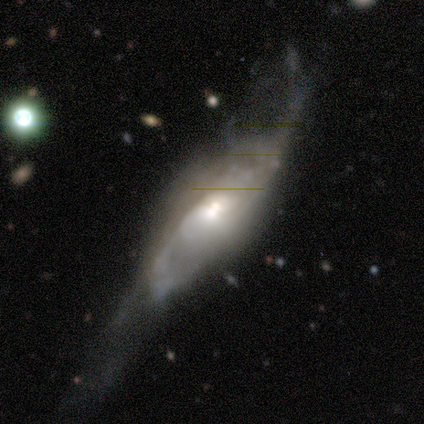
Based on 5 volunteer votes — A featured or disk galaxy (80%) with no bar (67%), 3 (50%, tied with can't tell) medium (100%) spiral arms (67%) and a large central bulge (33%, tied with moderate and small).

Vote fractions:
- Smooth or featured? featured or disk: 80% / smooth: 20% / star or artifact: 0%
- Edge-on disk? no: 75% / yes: 25%
- Bar? no: 67% / weak: 33% / strong: 0%
- Spiral arms? yes: 67% / no: 33%
- Spiral winding? medium: 100% / tight: 0% / loose: 0%
- Spiral arm count? 3: 50% (tied) / can't tell: 50% (tied) / 1: 0% / 2: 0% / 4: 0% / more than 4: 0%
- Bulge size? large: 33% (tied) / moderate: 33% (tied) / small: 33% (tied) / dominant: 0% / none: 0%
- Merging? none: 40% (tied) / major disturbance: 40% (tied) / minor disturbance: 20% / merger: 0%